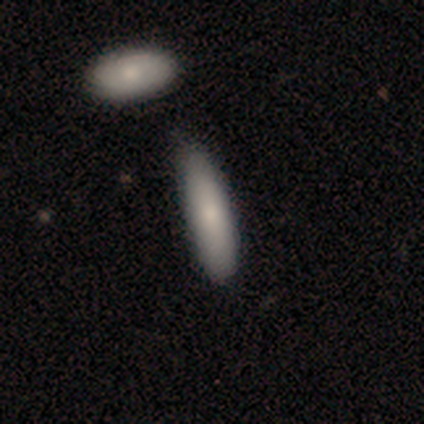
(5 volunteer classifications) Morphology: type=smooth (100%); roundness=cigar-shaped (100%); merging=minor disturbance (40%, tied with merger).